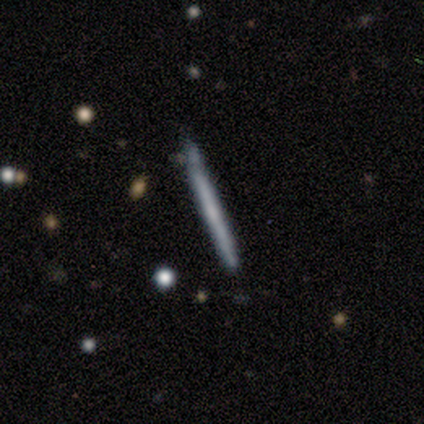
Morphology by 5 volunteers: A featured or disk galaxy (60%) viewed edge-on (100%) with no central bulge (67%). Merging: none (40%).